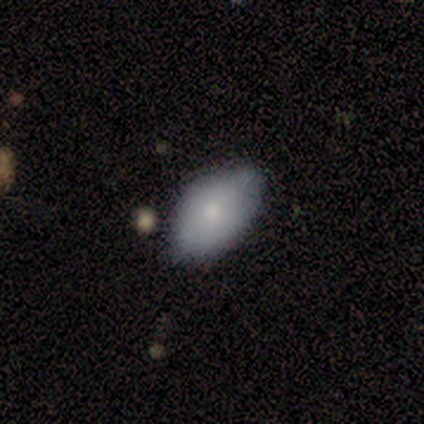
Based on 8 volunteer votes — Q: Smooth or featured?
A: smooth (50%); tied with: featured or disk (50%)
Q: How rounded?
A: in between (100%)
Q: Merging?
A: none (75%); runner-up: minor disturbance (25%)